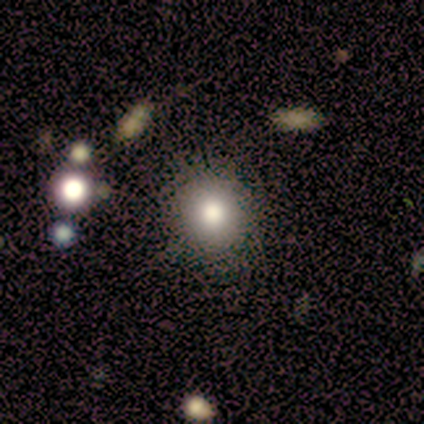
smooth-or-featured: smooth: 80% | featured or disk: 20% | star or artifact: 0%
  how-rounded: round: 75% | in between: 25% | cigar-shaped: 0%
  merging: none: 80% | minor disturbance: 20% | major disturbance: 0% | merger: 0%